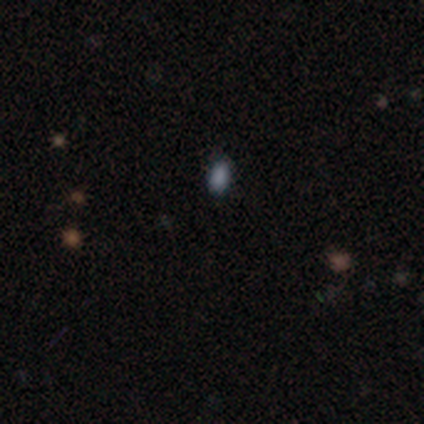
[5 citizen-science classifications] Smooth or featured? 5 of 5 (100%) said smooth. How rounded? 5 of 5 (100%) said in between. Merging? 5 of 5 (100%) said none.